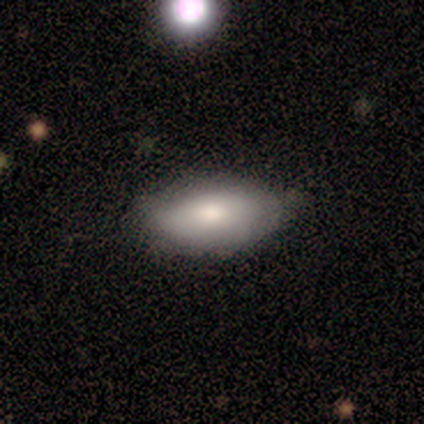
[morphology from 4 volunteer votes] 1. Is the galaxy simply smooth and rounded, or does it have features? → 75% smooth, 25% featured or disk, 0% star or artifact.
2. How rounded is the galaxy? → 100% in between, 0% round, 0% cigar-shaped.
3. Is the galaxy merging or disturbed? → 75% none, 25% minor disturbance, 0% major disturbance, 0% merger.